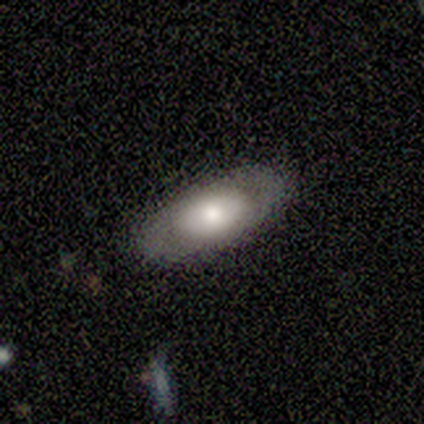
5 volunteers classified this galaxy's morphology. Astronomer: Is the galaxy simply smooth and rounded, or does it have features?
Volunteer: smooth — 100%.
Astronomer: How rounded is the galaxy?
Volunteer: in between — 80%.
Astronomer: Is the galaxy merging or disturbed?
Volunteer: none — 100%.